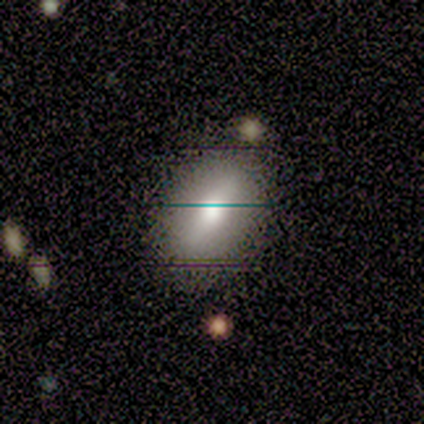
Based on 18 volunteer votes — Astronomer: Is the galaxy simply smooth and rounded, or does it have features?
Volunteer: smooth — 61%.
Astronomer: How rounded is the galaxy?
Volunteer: in between — 73%.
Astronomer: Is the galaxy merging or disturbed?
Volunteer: none — 79%.